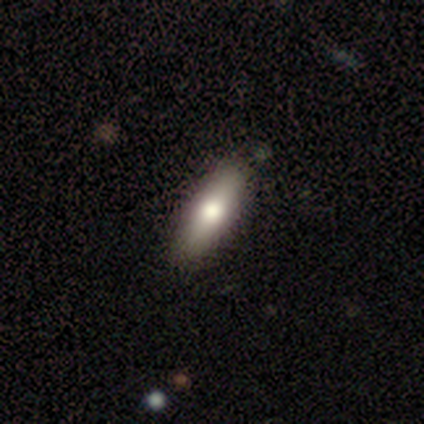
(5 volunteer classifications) Overall: smooth (80%). How rounded: cigar-shaped (75%). Merging: none (80%).